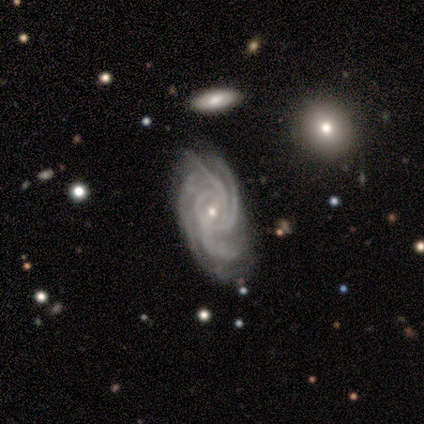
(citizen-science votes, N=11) Volunteers were most divided on "spiral arm count": 4: 50%, 3: 30%, more than 4: 20%, 1: 0%, 2: 0%, can't tell: 0%. More confident: edge-on disk — no (100%); spiral arms — yes (100%); smooth or featured — featured or disk (91%); spiral winding — tight (80%); bulge size — small (70%); merging — none (64%); bar — weak (60%).